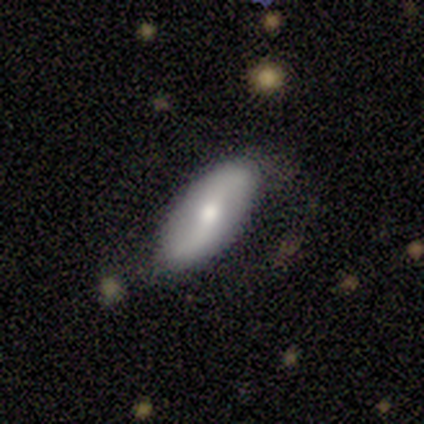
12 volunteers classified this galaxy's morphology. featured or disk 75%, smooth 25%, star or artifact 0%. Down the decision tree: edge-on disk — no (89%); bar — weak (50%); spiral arms — yes (88%); spiral arm count — 2 (86%); spiral winding — loose (86%); bulge size — moderate (62%); merging — none (67%).